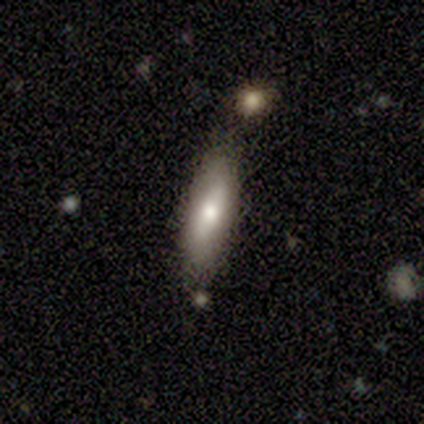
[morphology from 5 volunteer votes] This appears to be a smooth galaxy with no disk features (80%) that is in between round and cigar-shaped (50%, tied with cigar-shaped). Merging: none (80%).